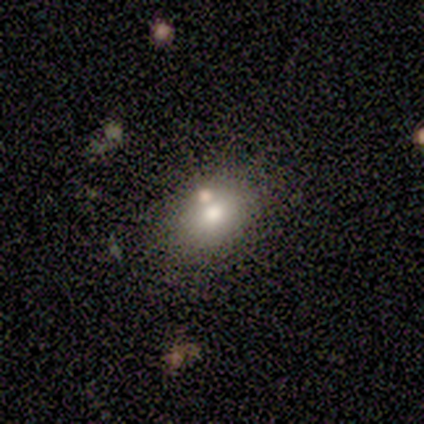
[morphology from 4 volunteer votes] smooth 75%, featured or disk 25%, star or artifact 0%. Down the decision tree: how rounded — in between (100%); merging — none (75%).